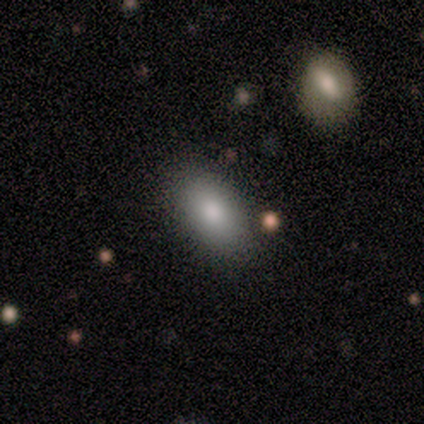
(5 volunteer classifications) smooth_or_featured: smooth (p=1.00)
how_rounded: in between (p=1.00)
merging: none (p=0.80) [alt: minor disturbance p=0.20]